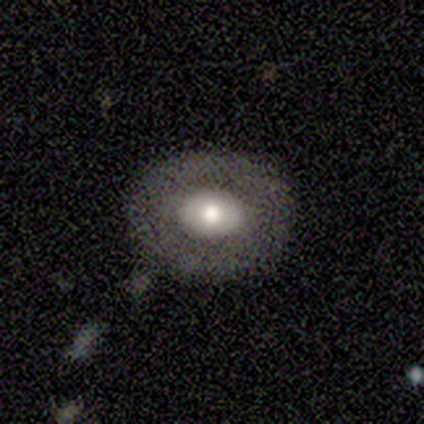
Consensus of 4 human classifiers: smooth_or_featured: smooth (p=0.50) [tied with: featured or disk p=0.50]
how_rounded: in between (p=1.00)
merging: none (p=1.00)